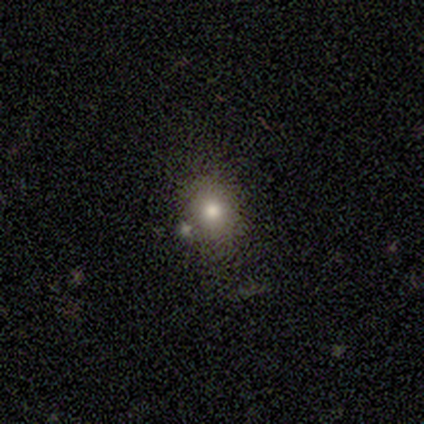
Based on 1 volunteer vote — Q: Smooth or featured?
A: smooth (100%)
Q: How rounded?
A: round (100%)
Q: Merging?
A: none (100%)